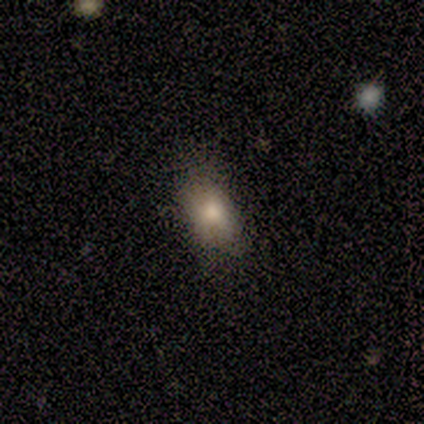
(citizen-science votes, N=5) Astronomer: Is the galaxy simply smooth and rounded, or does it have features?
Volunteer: smooth — 60%.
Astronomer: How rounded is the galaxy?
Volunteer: in between — 67%.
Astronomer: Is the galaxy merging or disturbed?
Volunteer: none — 75%.